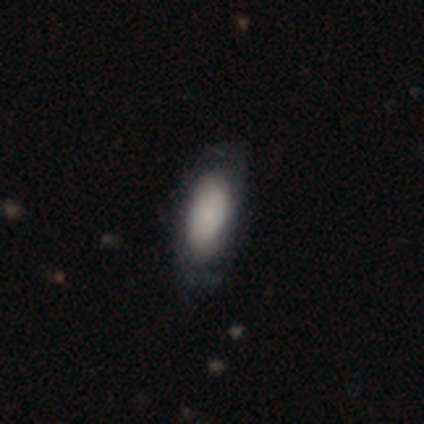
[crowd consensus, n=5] Q: Smooth or featured?
A: smooth (100%)
Q: How rounded?
A: in between (80%); runner-up: round (20%)
Q: Merging?
A: minor disturbance (60%); runner-up: none (20%)